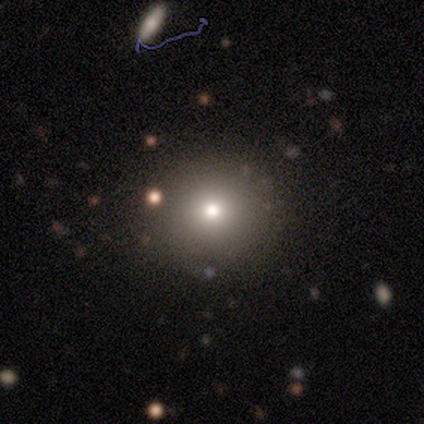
This appears to be a smooth galaxy with no disk features (80%) that is round (100%). Merging: none (100%).